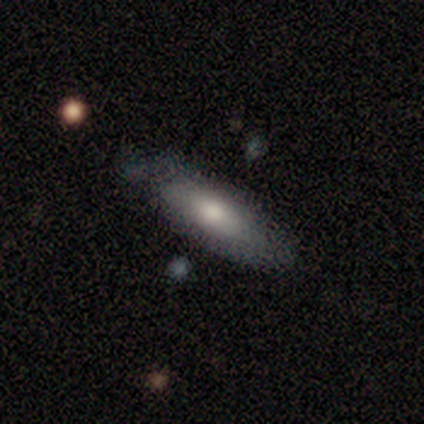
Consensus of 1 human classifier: Q: Smooth or featured?
A: featured or disk (100%)
Q: Edge-on disk?
A: no (100%)
Q: Bar?
A: no (100%)
Q: Spiral arms?
A: no (100%)
Q: Bulge size?
A: moderate (100%)
Q: Merging?
A: none (100%)